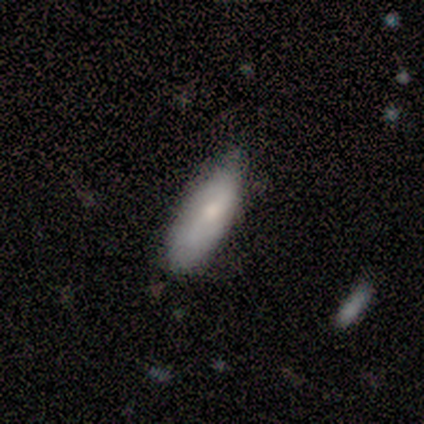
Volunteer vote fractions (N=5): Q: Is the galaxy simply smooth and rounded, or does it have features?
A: featured or disk — 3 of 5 (60%).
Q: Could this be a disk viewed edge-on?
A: no — 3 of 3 (100%).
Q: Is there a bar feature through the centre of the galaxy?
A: no — 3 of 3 (100%).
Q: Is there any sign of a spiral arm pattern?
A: no — 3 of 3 (100%).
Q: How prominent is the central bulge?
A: dominant — 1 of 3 (33%, tied with moderate and none).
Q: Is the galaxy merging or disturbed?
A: none — 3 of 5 (60%).